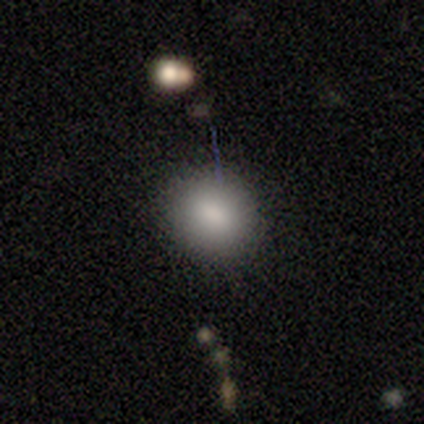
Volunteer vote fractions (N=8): Smooth or featured: smooth — 88% (featured or disk — 12%)
How rounded: round — 71% (in between — 29%)
Merging: none — 100%